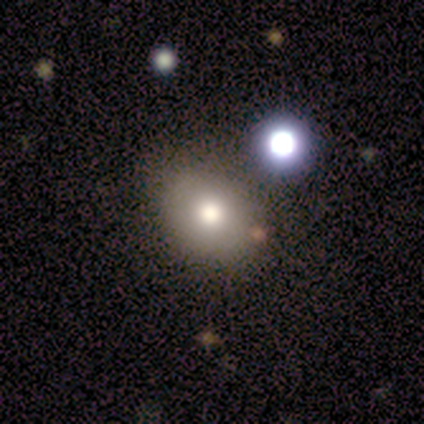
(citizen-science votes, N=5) Smooth or featured: smooth — 80% (featured or disk — 20%)
How rounded: round — 75% (in between — 25%)
Merging: none — 80% (merger — 20%)